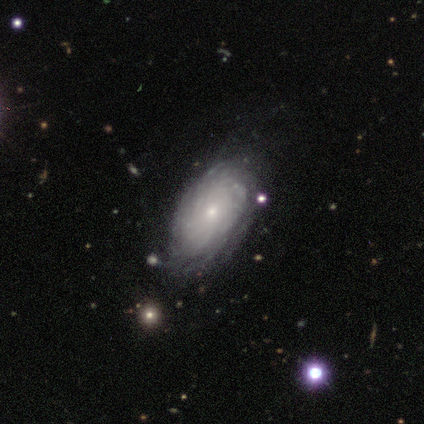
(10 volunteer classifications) This appears to be a featured or disk galaxy (80%) with no bar (88%), tight (100%) spiral arms (100%) and a small central bulge (50%). Merging: none (100%).